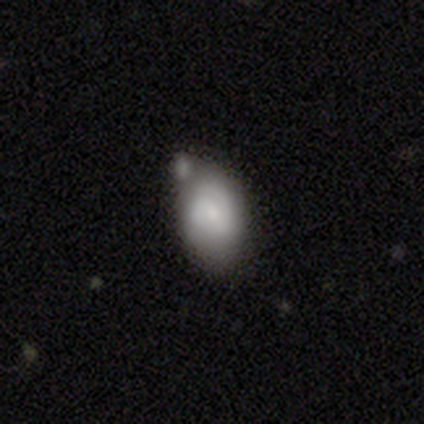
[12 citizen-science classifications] A featured or disk galaxy (58%) with no bar (71%), 2 (50%) tight (100%) spiral arms (57%) and a moderate central bulge (43%, tied with small). Merging: none (33%, tied with minor disturbance and merger).